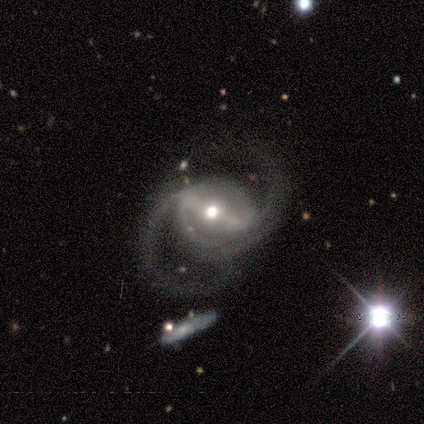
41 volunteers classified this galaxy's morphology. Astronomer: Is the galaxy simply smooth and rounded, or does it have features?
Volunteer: featured or disk — 95%.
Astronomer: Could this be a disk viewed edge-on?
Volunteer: no — 97%.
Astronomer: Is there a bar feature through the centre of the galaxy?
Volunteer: strong — 66%.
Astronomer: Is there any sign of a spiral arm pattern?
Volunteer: yes — 97%.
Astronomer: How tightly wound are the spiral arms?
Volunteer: medium — 68%.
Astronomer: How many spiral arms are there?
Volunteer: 2 — 89%.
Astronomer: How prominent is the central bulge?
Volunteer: moderate — 66%.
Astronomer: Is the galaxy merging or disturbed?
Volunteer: none — 72%.